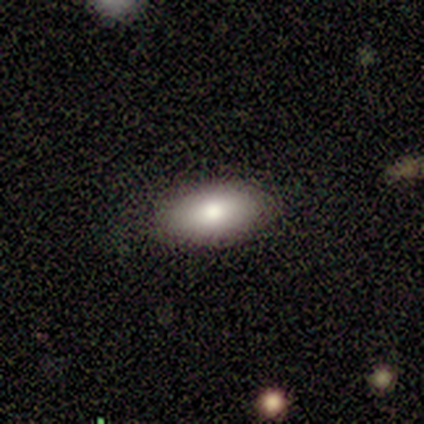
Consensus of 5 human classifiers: A smooth galaxy with no disk features (80%) that is in between round and cigar-shaped (100%).

Vote fractions:
- Smooth or featured? smooth: 80% / featured or disk: 20% / star or artifact: 0%
- How rounded? in between: 100% / round: 0% / cigar-shaped: 0%
- Merging? none: 100% / minor disturbance: 0% / major disturbance: 0% / merger: 0%